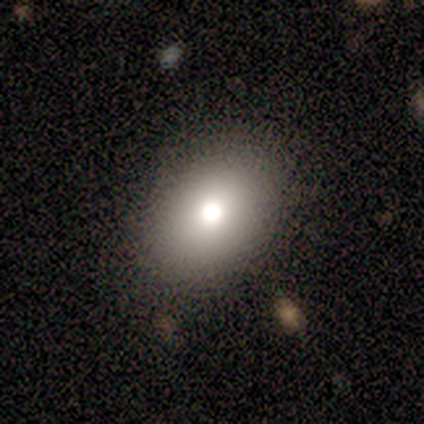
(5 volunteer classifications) Overall: smooth (80%). How rounded: in between (100%). Merging: none (100%).